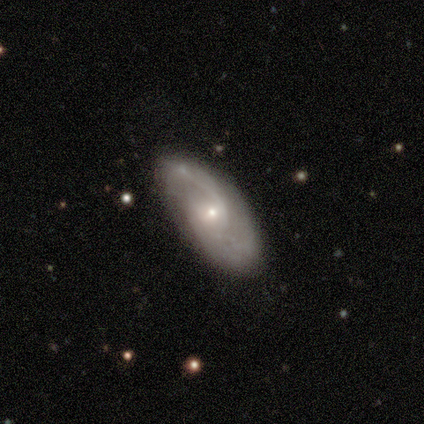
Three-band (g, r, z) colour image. It shows a featured or disk galaxy (100%) with no bar (60%), 2 (60%) medium (60%) spiral arms (100%) and a small central bulge (100%). Merging: none (80%).